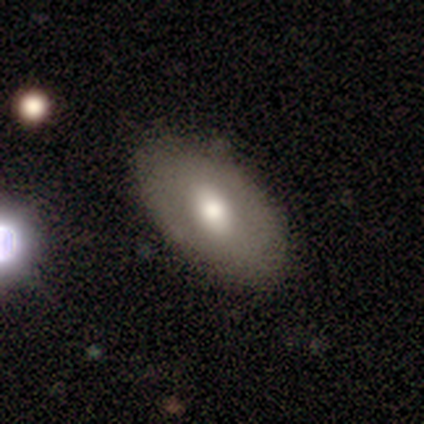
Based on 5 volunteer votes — Volunteers were most divided on "smooth or featured": smooth: 60%, featured or disk: 40%, star or artifact: 0%. More confident: how rounded — in between (100%); merging — none (80%).